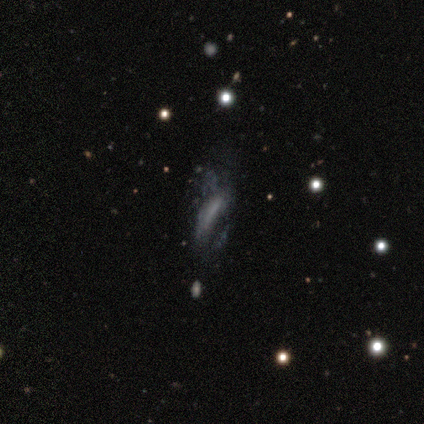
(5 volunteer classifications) A smooth galaxy with no disk features (60%) that is in between round and cigar-shaped (100%). Merging: major disturbance (50%).